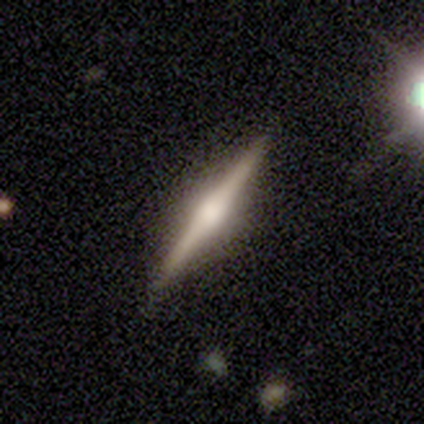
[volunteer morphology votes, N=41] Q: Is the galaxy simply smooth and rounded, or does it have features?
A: featured or disk — 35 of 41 (85%).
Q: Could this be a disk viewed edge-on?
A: yes — 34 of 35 (97%).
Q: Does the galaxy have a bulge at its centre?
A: rounded — 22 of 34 (65%).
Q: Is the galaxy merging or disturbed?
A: none — 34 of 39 (87%).